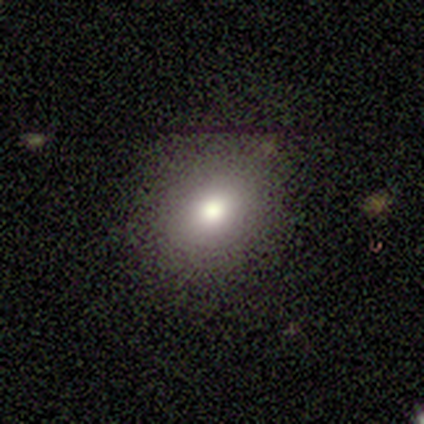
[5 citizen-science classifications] Smooth or featured? smooth (80%)
How rounded? in between (75%)
Merging? none (100%)